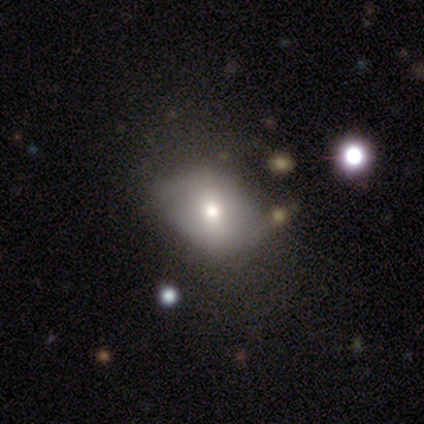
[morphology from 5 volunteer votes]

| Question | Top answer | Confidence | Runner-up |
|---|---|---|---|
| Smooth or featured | smooth | 60% | featured or disk (40%) |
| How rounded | in between | 67% | round (33%) |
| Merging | none | 80% | minor disturbance (20%) |